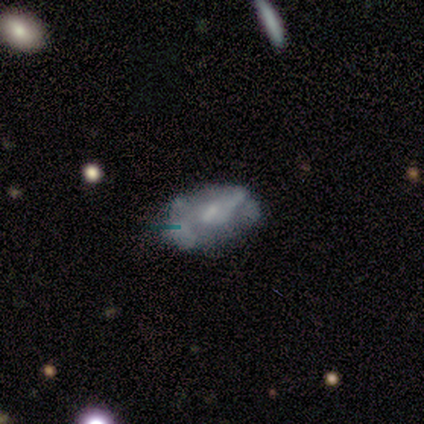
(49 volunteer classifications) Q: Smooth or featured?
A: featured or disk (67%); runner-up: smooth (24%)
Q: Edge-on disk?
A: no (100%)
Q: Bar?
A: no (58%); runner-up: weak (36%)
Q: Spiral arms?
A: no (55%); runner-up: yes (45%)
Q: Bulge size?
A: small (61%); runner-up: none (21%)
Q: Merging?
A: none (60%); runner-up: minor disturbance (18%)